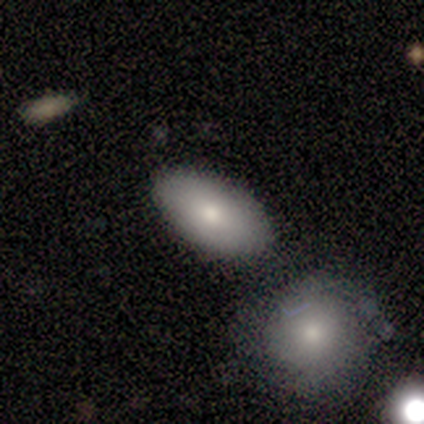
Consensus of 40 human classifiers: A smooth galaxy with no disk features (88%) that is in between round and cigar-shaped (89%). Merging: none (67%).